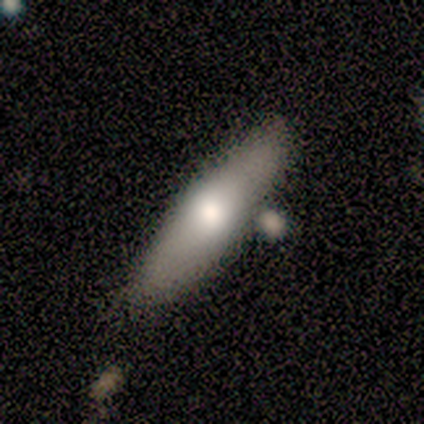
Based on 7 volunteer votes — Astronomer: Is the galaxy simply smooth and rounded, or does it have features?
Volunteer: smooth — 57% (runner-up: featured or disk, 43%).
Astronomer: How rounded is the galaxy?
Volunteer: cigar-shaped — 100%.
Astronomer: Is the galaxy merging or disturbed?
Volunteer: none — 57%.